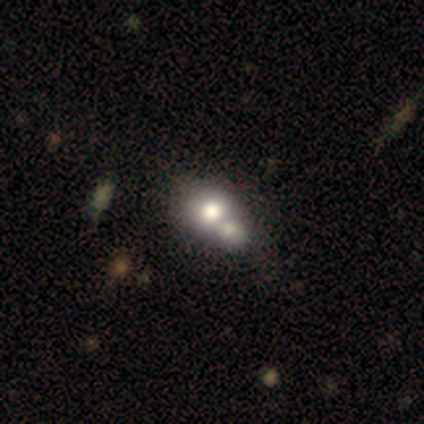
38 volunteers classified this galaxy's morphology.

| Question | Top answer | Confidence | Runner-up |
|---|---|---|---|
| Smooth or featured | smooth | 74% | featured or disk (21%) |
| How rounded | round | 54% | in between (46%) |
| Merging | merger | 69% | none (19%) |